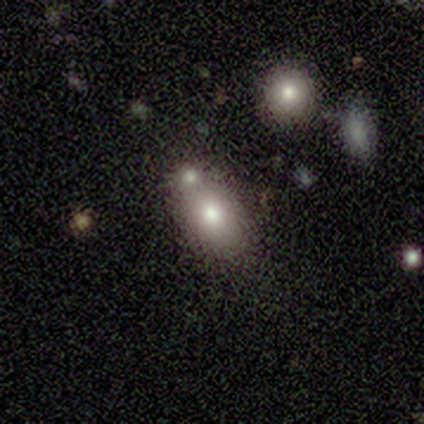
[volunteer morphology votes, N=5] Smooth or featured? 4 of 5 (80%) said smooth. How rounded? 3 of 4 (75%) said in between. Merging? 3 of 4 (75%) said none.